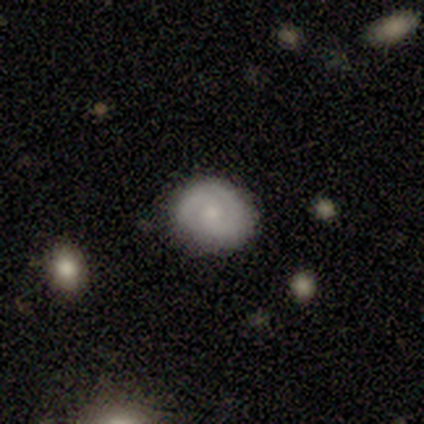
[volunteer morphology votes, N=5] Smooth or featured?
  - featured or disk: 80% *
  - smooth: 20%
  - star or artifact: 0%
Edge-on disk?
  - no: 75% *
  - yes: 25%
Bar?
  - strong: 33% * (tied)
  - weak: 33% * (tied)
  - no: 33% * (tied)
Spiral arms?
  - yes: 67% *
  - no: 33%
Spiral winding?
  - medium: 100% *
  - tight: 0%
  - loose: 0%
Spiral arm count?
  - 2: 100% *
  - 1: 0%
  - 3: 0%
  - 4: 0%
  - more than 4: 0%
  - can't tell: 0%
Bulge size?
  - small: 67% *
  - large: 33%
  - dominant: 0%
  - moderate: 0%
  - none: 0%
Merging?
  - none: 100% *
  - minor disturbance: 0%
  - major disturbance: 0%
  - merger: 0%